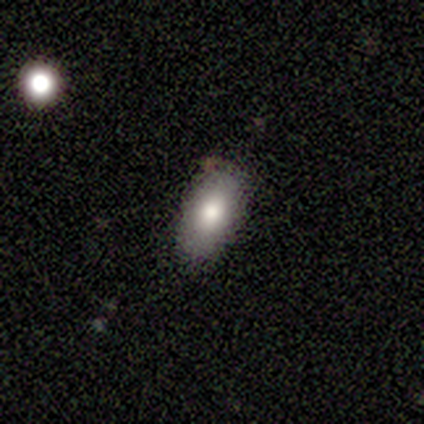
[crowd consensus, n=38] Smooth or featured? 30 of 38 (79%) said smooth. How rounded? 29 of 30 (97%) said in between. Merging? 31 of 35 (89%) said none.